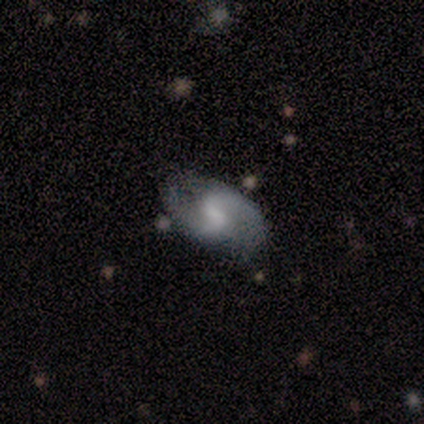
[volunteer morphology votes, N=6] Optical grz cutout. It shows a featured or disk galaxy (83%) with a weak bar (40%, tied with no), 2 (100%) tight (40%, tied with loose) spiral arms (100%) and a small central bulge (80%). Merging: none (83%).